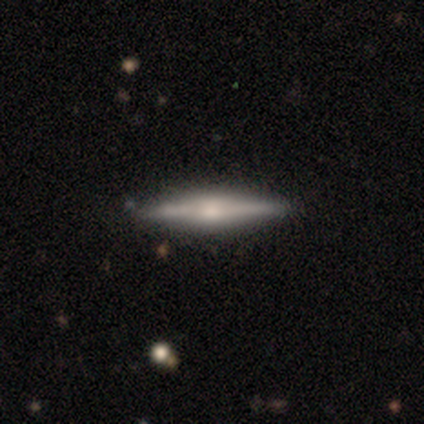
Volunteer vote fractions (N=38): A featured or disk galaxy (53%) viewed edge-on (95%) with a rounded central bulge (68%). Merging: none (88%).